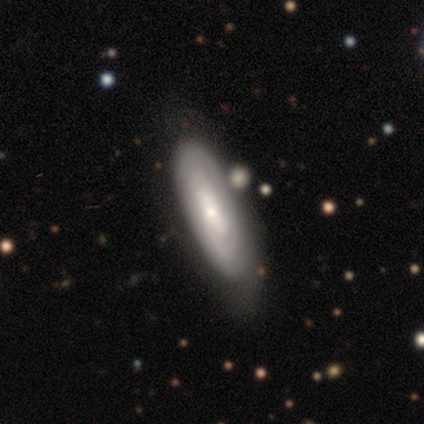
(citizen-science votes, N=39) Morphology: type=featured or disk (67%); edge-on=no (96%); bar=no (68%); spiral arms=yes (84%); winding=tight (100%); arm count=can't tell (71%); bulge=small (60%); merging=none (46%).